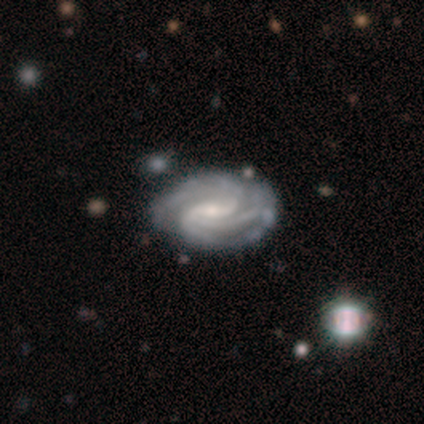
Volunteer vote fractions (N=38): smooth-or-featured: featured or disk: 95% | smooth: 3% | star or artifact: 3%
  disk-edge-on: no: 100% | yes: 0%
    bar: strong: 44% (tied) | weak: 44% (tied) | no: 11%
    has-spiral-arms: yes: 100% | no: 0%
      spiral-winding: tight: 67% | medium: 31% | loose: 3%
      spiral-arm-count: 3: 53% | 2: 17% | 4: 11% | can't tell: 11% | more than 4: 8% | 1: 0%
    bulge-size: small: 56% | moderate: 39% | large: 6% | dominant: 0% | none: 0%
  merging: none: 43% | minor disturbance: 11% | major disturbance: 3% | merger: 0%